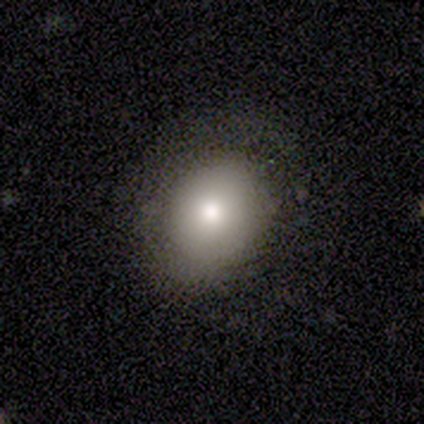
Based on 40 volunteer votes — smooth_or_featured: smooth (p=0.88) [alt: featured or disk p=0.12]
how_rounded: round (p=0.51) [alt: in between p=0.49]
merging: none (p=0.75) [alt: minor disturbance p=0.12]